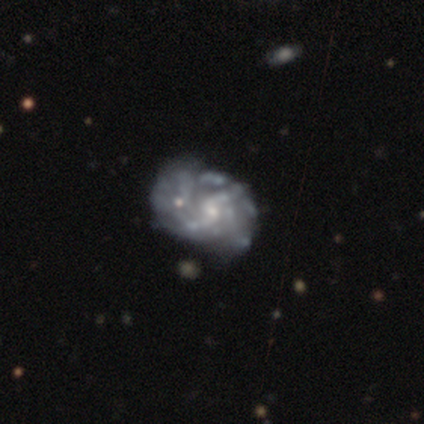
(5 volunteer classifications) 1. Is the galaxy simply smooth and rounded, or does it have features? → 60% featured or disk, 20% smooth, 20% star or artifact.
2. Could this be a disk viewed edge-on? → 100% no, 0% yes.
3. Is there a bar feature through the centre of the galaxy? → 67% weak, 33% no, 0% strong.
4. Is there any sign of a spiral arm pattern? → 100% yes, 0% no.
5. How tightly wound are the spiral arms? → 67% tight, 33% loose, 0% medium.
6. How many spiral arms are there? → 67% can't tell, 33% 2, 0% 1, 0% 3, 0% 4, 0% more than 4.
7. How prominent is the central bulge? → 67% small, 33% large, 0% dominant, 0% moderate, 0% none.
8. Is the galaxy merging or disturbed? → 75% none, 25% merger, 0% minor disturbance, 0% major disturbance.